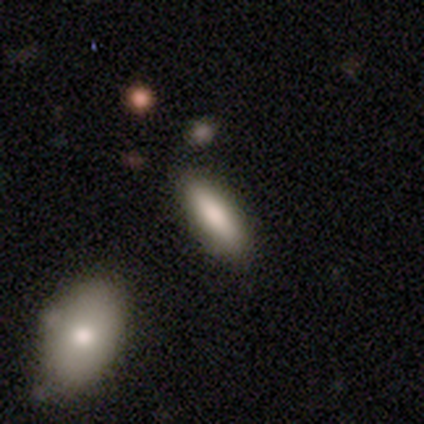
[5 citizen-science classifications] Smooth or featured: smooth — 80% (featured or disk — 20%)
How rounded: cigar-shaped — 75% (in between — 25%)
Merging: none — 100%